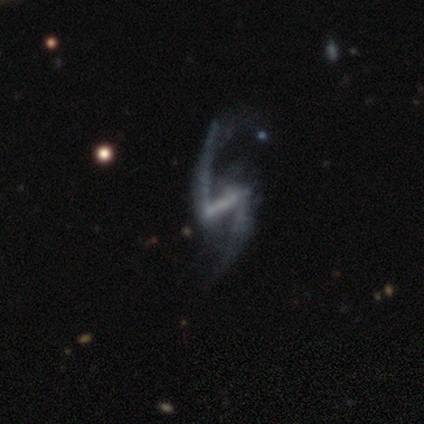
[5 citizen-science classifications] Smooth or featured? 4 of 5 (80%) said featured or disk. Edge-on disk? 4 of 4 (100%) said no. Bar? 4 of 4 (100%) said strong. Spiral arms? 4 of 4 (100%) said yes. Spiral winding? 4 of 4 (100%) said loose. Spiral arm count? 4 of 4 (100%) said 2. Bulge size? 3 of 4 (75%) said none. Merging? 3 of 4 (75%) said none.